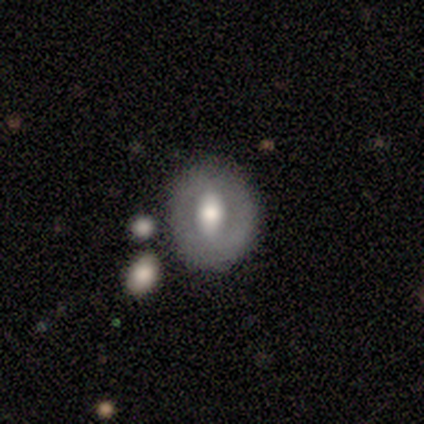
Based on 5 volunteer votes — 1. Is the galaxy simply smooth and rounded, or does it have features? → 60% featured or disk, 40% smooth, 0% star or artifact.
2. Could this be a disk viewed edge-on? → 100% no, 0% yes.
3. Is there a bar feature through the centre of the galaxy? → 67% weak, 33% no, 0% strong.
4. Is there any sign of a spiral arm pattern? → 100% no, 0% yes.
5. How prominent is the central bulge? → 67% moderate, 33% large, 0% dominant, 0% small, 0% none.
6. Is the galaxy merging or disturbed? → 100% none, 0% minor disturbance, 0% major disturbance, 0% merger.